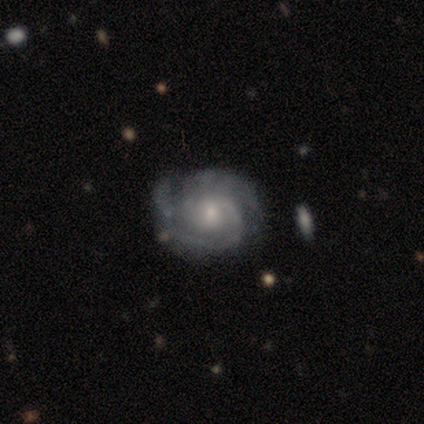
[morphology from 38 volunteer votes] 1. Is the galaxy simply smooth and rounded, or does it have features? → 87% featured or disk, 11% smooth, 3% star or artifact.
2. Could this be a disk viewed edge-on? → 100% no, 0% yes.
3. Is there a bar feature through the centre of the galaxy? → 67% no, 27% weak, 6% strong.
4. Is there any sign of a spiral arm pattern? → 100% yes, 0% no.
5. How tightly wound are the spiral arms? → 58% tight, 33% medium, 9% loose.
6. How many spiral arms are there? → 42% can't tell, 33% 3, 21% 2, 3% 1, 0% 4, 0% more than 4.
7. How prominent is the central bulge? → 64% small, 27% moderate, 3% dominant, 3% large, 3% none.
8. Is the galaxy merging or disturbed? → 78% none, 19% minor disturbance, 3% merger, 0% major disturbance.